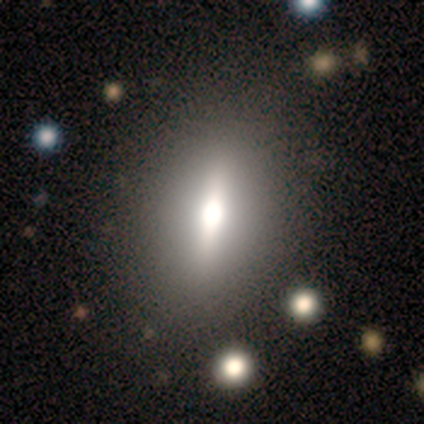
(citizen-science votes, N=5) Smooth or featured? featured or disk (60%)
Edge-on disk? yes (67%)
Edge-on bulge? boxy (50%, tied with rounded)
Merging? none (75%)